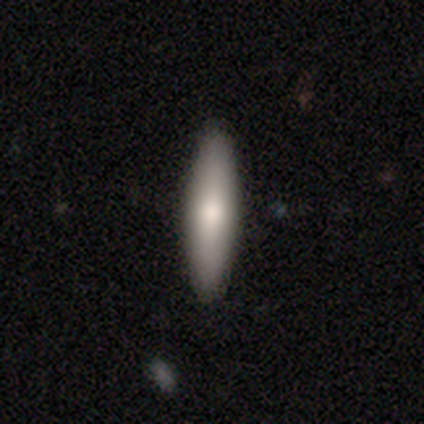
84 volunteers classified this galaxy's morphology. Smooth or featured? 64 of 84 (76%) said smooth. How rounded? 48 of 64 (75%) said cigar-shaped. Merging? 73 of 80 (91%) said none.